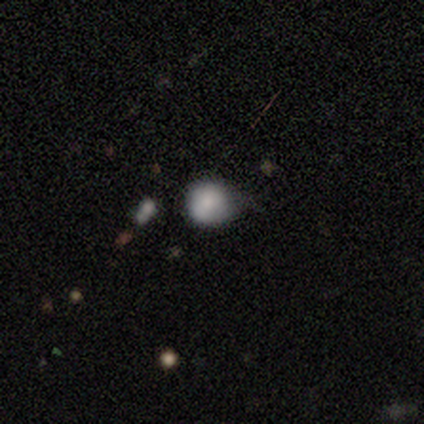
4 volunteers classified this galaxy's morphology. smooth_or_featured: smooth (p=0.50) [tied with: star or artifact p=0.50]
how_rounded: round (p=1.00)
merging: none (p=1.00)